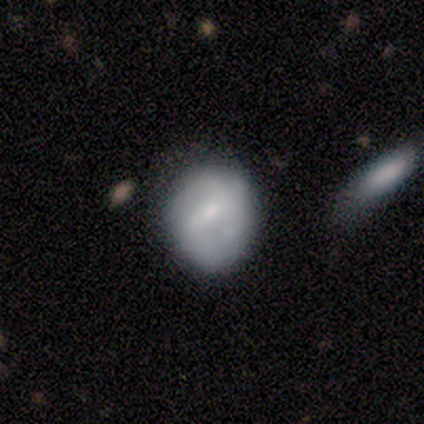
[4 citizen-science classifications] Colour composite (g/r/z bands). It shows a featured or disk galaxy (75%) with a strong bar (33%, tied with weak and no), 3 (50%, tied with can't tell) tight (50%, tied with loose) spiral arms (67%) and a moderate central bulge (67%). Merging: none (75%).